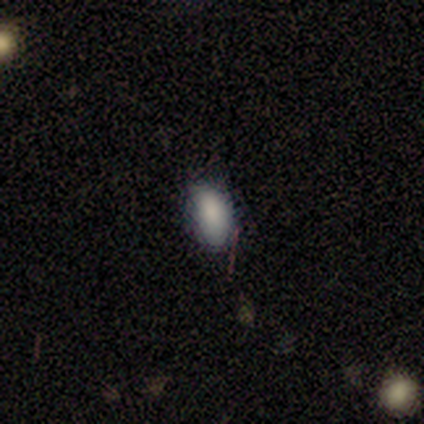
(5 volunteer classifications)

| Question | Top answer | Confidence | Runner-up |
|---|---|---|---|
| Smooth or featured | star or artifact | 60% | smooth (40%) |